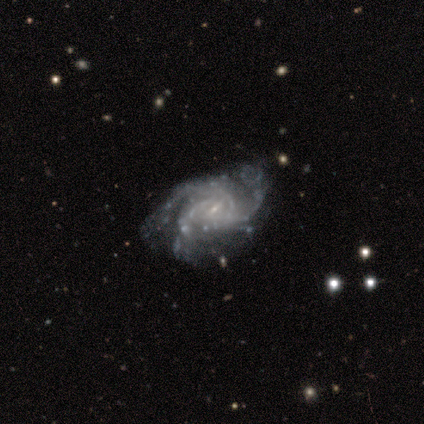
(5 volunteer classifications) Q: Smooth or featured?
A: featured or disk (80%); runner-up: smooth (20%)
Q: Edge-on disk?
A: no (100%)
Q: Bar?
A: weak (50%); tied with: no (50%)
Q: Spiral arms?
A: yes (100%)
Q: Spiral winding?
A: tight (50%); tied with: medium (50%)
Q: Spiral arm count?
A: 3 (50%); runner-up: 2 (25%)
Q: Bulge size?
A: small (100%)
Q: Merging?
A: none (80%); runner-up: minor disturbance (20%)